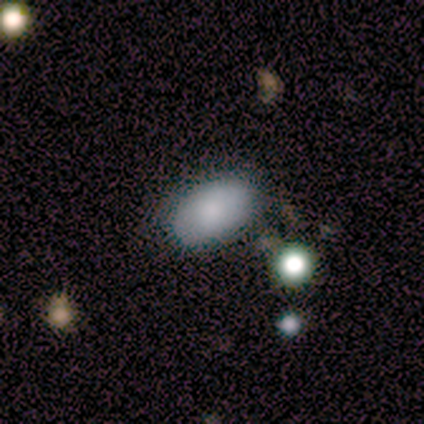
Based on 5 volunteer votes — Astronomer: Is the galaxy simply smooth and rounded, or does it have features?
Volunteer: smooth — 100%.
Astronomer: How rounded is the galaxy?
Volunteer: in between — 100%.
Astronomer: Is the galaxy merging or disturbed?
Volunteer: none — 100%.